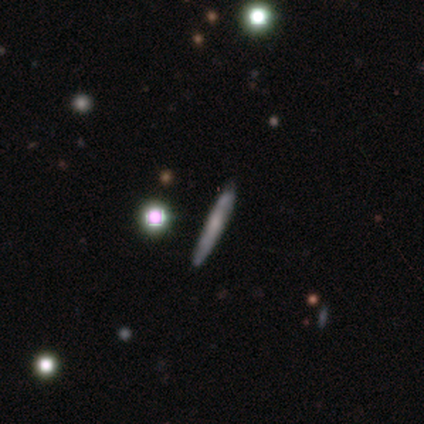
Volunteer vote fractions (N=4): This appears to be a smooth galaxy with no disk features (50%, tied with featured or disk) that is cigar-shaped (100%). Merging: none (75%).